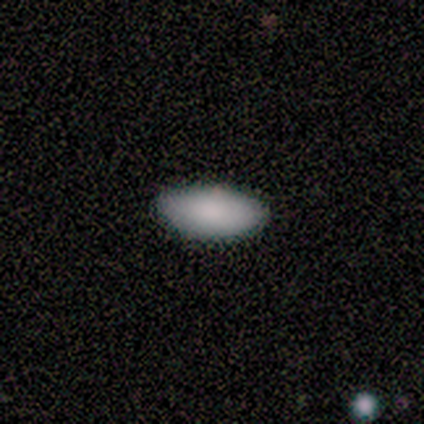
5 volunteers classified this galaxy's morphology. Q: Smooth or featured?
A: smooth (100%)
Q: How rounded?
A: in between (100%)
Q: Merging?
A: none (100%)